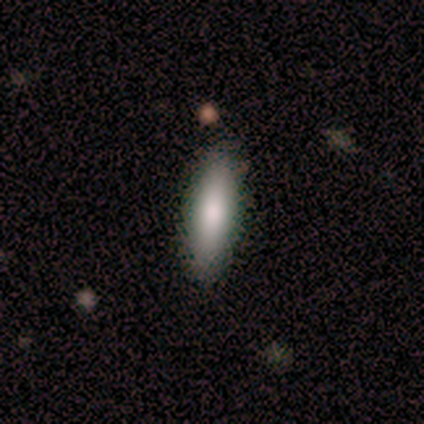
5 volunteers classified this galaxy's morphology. A smooth galaxy with no disk features (60%) that is cigar-shaped (67%). Merging: none (50%, tied with minor disturbance).